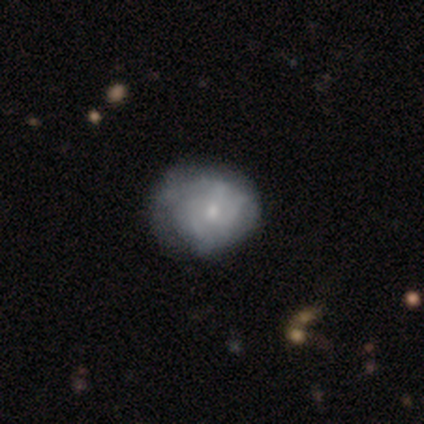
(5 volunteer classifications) Q: Smooth or featured?
A: smooth (60%); runner-up: featured or disk (40%)
Q: How rounded?
A: in between (67%); runner-up: round (33%)
Q: Merging?
A: minor disturbance (40%); tied with: major disturbance (40%)